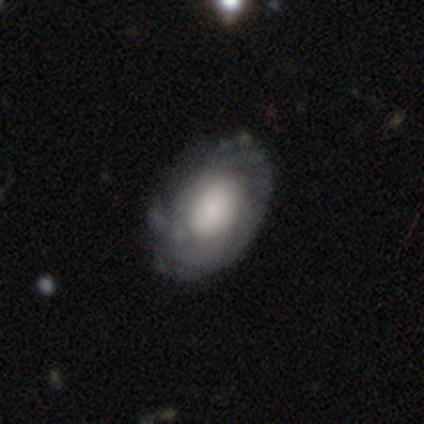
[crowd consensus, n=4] Smooth or featured? 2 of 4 (50%, tied with featured or disk) said smooth. How rounded? 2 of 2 (100%) said in between. Merging? 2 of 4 (50%, tied with minor disturbance) said none.